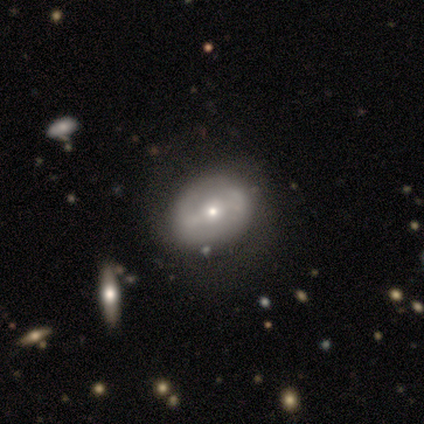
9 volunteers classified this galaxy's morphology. smooth_or_featured: featured or disk (p=0.67) [alt: smooth p=0.33]
disk_edge_on: no (p=1.00)
bar: no (p=0.67) [alt: strong p=0.17]
has_spiral_arms: no (p=0.67) [alt: yes p=0.33]
bulge_size: small (p=0.83) [alt: moderate p=0.17]
merging: none (p=1.00)